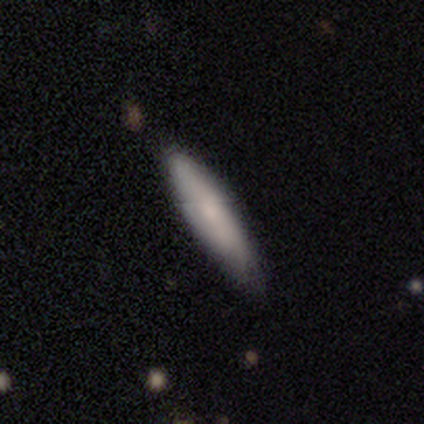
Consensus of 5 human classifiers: This is likely a featured or disk galaxy (60%). It is likely not viewed edge-on (67%). Bar: clearly no (100%). Spiral arm pattern: clearly no (100%). Central bulge: possibly small (50%, tied with none). Merging: clearly none (100%).